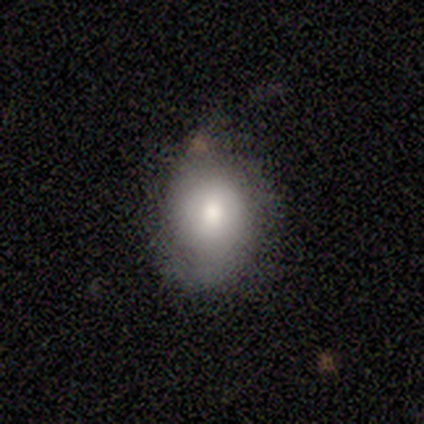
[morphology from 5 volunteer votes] A smooth galaxy with no disk features (60%) that is round (100%).

Vote fractions:
- Smooth or featured? smooth: 60% / featured or disk: 40% / star or artifact: 0%
- How rounded? round: 100% / in between: 0% / cigar-shaped: 0%
- Merging? none: 60% / minor disturbance: 40% / major disturbance: 0% / merger: 0%